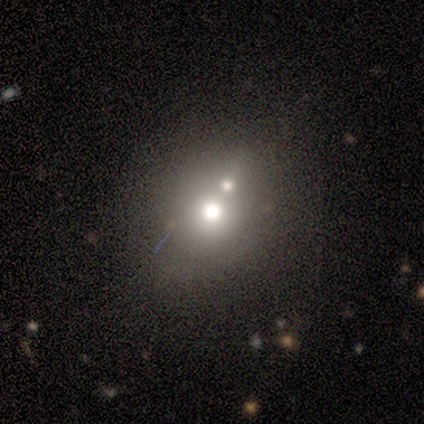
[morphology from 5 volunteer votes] A smooth galaxy with no disk features (60%) that is round (100%).

Vote fractions:
- Smooth or featured? smooth: 60% / featured or disk: 20% / star or artifact: 20%
- How rounded? round: 100% / in between: 0% / cigar-shaped: 0%
- Merging? none: 50% / minor disturbance: 25% / merger: 25% / major disturbance: 0%